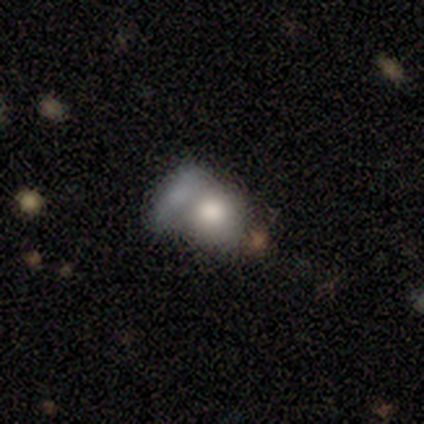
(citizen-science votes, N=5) Morphology: type=smooth (60%); roundness=in between (67%); merging=merger (80%).